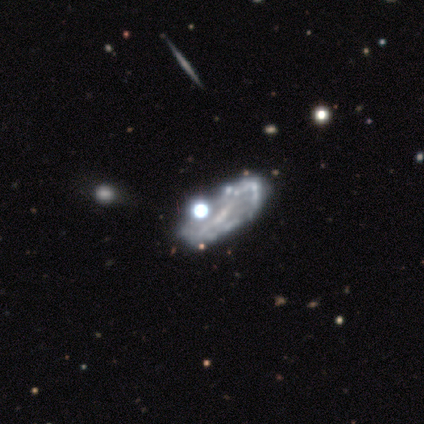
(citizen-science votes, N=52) A featured or disk galaxy (75%) with a weak bar (54%), no spiral arms (68%) and no central bulge (49%). Merging: none (35%).